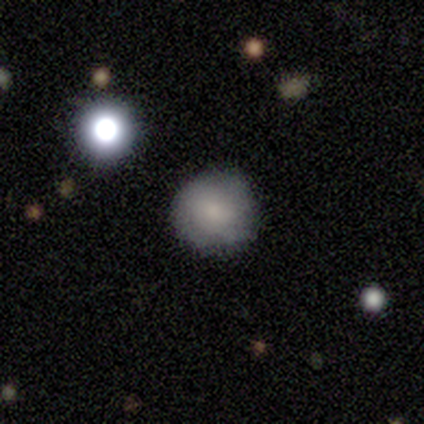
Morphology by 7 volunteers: A smooth galaxy with no disk features (86%) that is round (100%).

Vote fractions:
- Smooth or featured? smooth: 86% / star or artifact: 14% / featured or disk: 0%
- How rounded? round: 100% / in between: 0% / cigar-shaped: 0%
- Merging? none: 67% / minor disturbance: 17% / major disturbance: 17% / merger: 0%